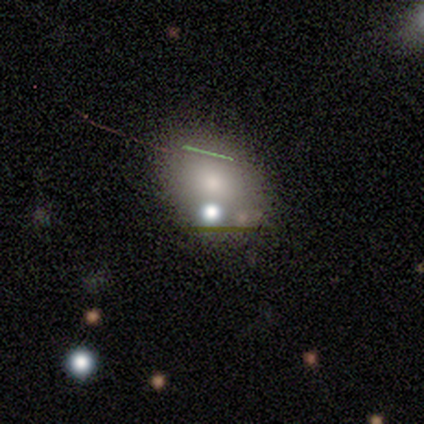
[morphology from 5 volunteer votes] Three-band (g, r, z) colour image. It shows a smooth galaxy with no disk features (80%) that is round (50%, tied with in between). Merging: none (50%, tied with merger).